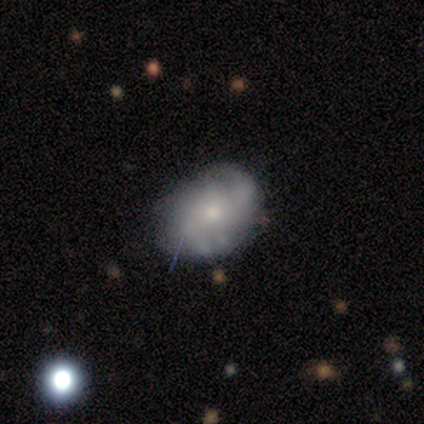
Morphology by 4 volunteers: Volunteers were most divided on "smooth or featured": smooth: 75%, featured or disk: 25%, star or artifact: 0%. More confident: how rounded — in between (100%); merging — minor disturbance (75%).